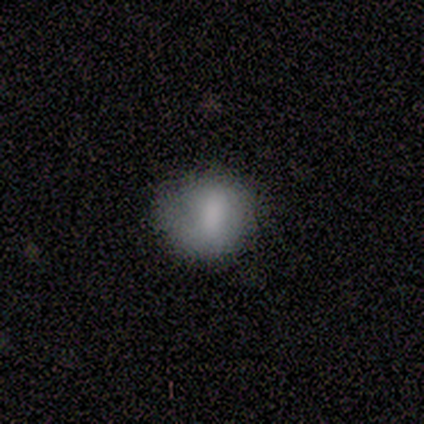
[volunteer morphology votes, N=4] smooth_or_featured: smooth (p=0.75) [alt: featured or disk p=0.25]
how_rounded: round (p=1.00)
merging: none (p=0.50) [tied with: minor disturbance p=0.50]